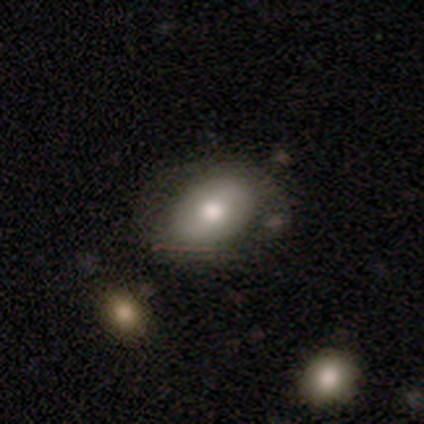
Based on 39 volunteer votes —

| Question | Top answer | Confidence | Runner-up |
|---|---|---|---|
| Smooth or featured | smooth | 46% | tied: featured or disk (46%) |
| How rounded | in between | 89% | round (11%) |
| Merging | none | 61% | minor disturbance (22%) |